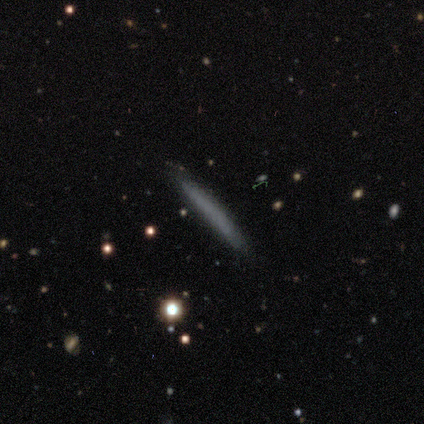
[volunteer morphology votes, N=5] smooth-or-featured: smooth: 60% | featured or disk: 40% | star or artifact: 0%
  how-rounded: cigar-shaped: 100% | round: 0% | in between: 0%
  merging: none: 100% | minor disturbance: 0% | major disturbance: 0% | merger: 0%